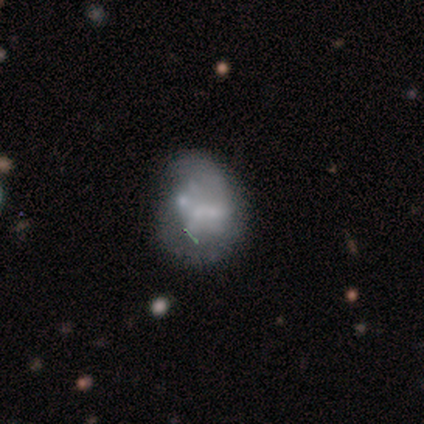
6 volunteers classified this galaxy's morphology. Smooth or featured? 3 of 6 (50%) said featured or disk. Edge-on disk? 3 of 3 (100%) said no. Bar? 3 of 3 (100%) said no. Spiral arms? 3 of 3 (100%) said no. Bulge size? 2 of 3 (67%) said small. Merging? 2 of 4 (50%) said minor disturbance.